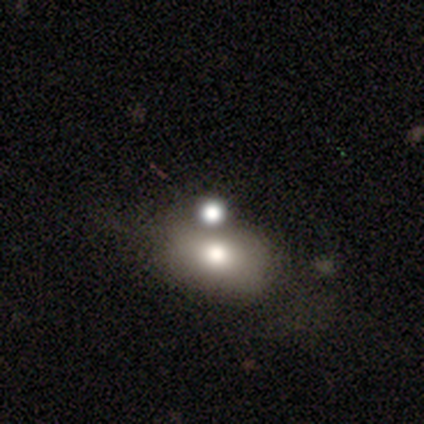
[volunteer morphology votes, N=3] Smooth or featured? smooth (100%)
How rounded? in between (100%)
Merging? none (33%, tied with minor disturbance and merger)